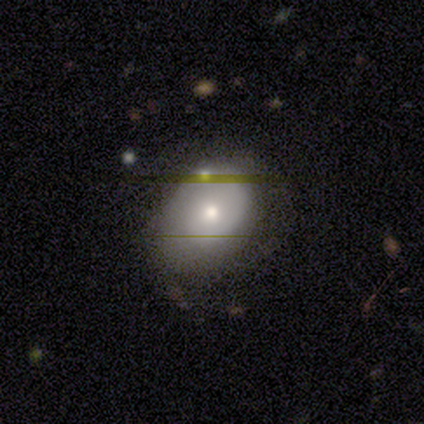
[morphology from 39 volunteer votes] type=smooth (56%); roundness=in between (73%); merging=none (49%).